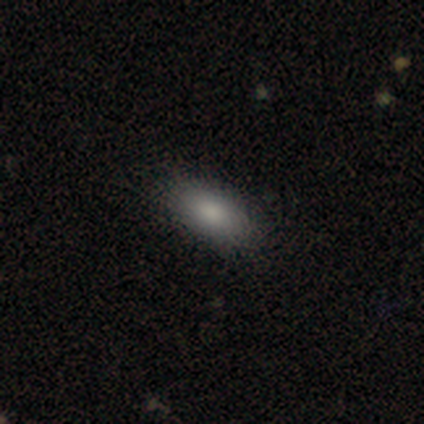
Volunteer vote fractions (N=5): Morphology: type=smooth (100%); roundness=in between (100%); merging=none (80%).